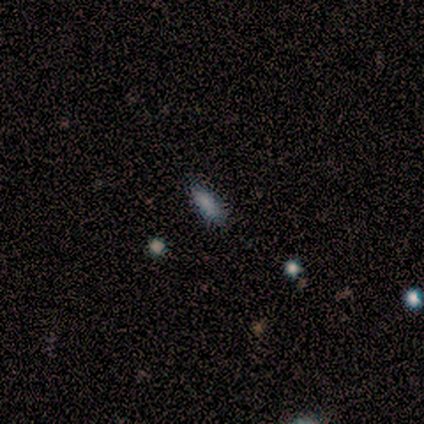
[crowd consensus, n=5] This appears to be a smooth galaxy with no disk features (60%) that is in between round and cigar-shaped (67%). Merging: none (100%).